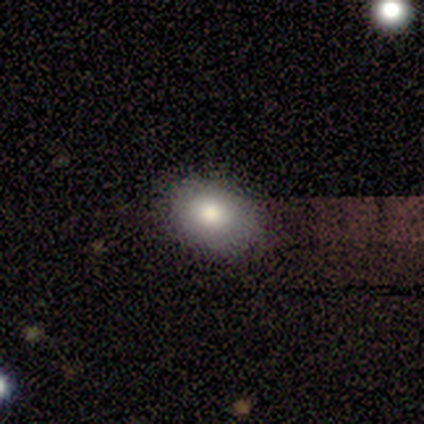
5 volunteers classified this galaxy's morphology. Smooth or featured?
  - smooth: 100% *
  - featured or disk: 0%
  - star or artifact: 0%
How rounded?
  - in between: 60% *
  - round: 40%
  - cigar-shaped: 0%
Merging?
  - none: 100% *
  - minor disturbance: 0%
  - major disturbance: 0%
  - merger: 0%